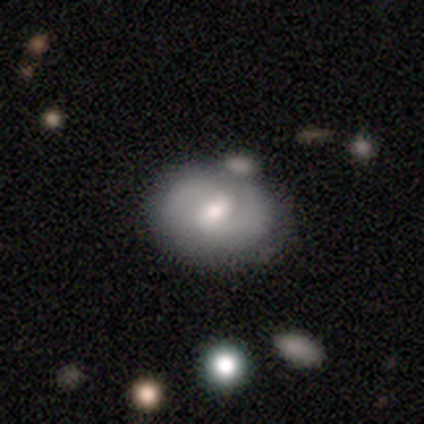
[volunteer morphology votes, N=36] smooth_or_featured: featured or disk (p=0.75) [alt: smooth p=0.17]
disk_edge_on: no (p=0.96) [alt: yes p=0.04]
bar: weak (p=0.77) [alt: no p=0.19]
has_spiral_arms: yes (p=0.92) [alt: no p=0.08]
spiral_winding: medium (p=0.58) [alt: tight p=0.25]
spiral_arm_count: 2 (p=0.88) [alt: can't tell p=0.12]
bulge_size: moderate (p=0.65) [alt: small p=0.27]
merging: none (p=0.64) [alt: minor disturbance p=0.18]